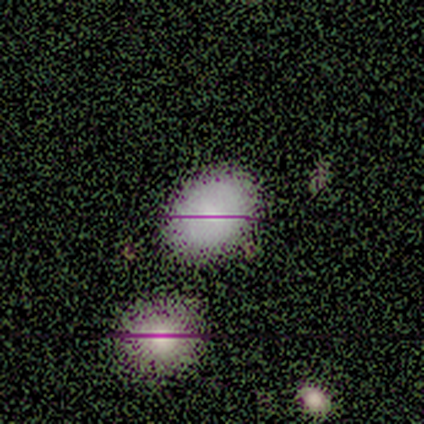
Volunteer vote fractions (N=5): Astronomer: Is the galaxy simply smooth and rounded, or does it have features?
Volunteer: smooth — 60%.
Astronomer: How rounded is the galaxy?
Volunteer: in between — 67%.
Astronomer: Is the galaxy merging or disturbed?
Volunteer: none — 100%.